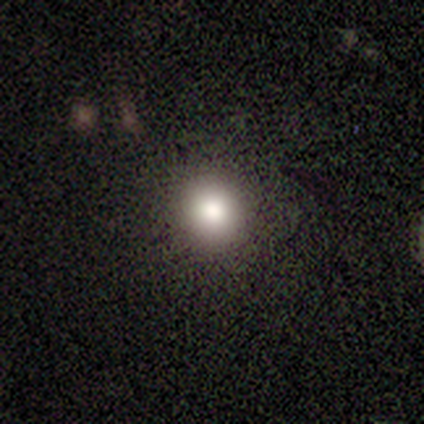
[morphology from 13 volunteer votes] smooth 77%, star or artifact 23%, featured or disk 0%. Down the decision tree: how rounded — round (100%); merging — none (100%).